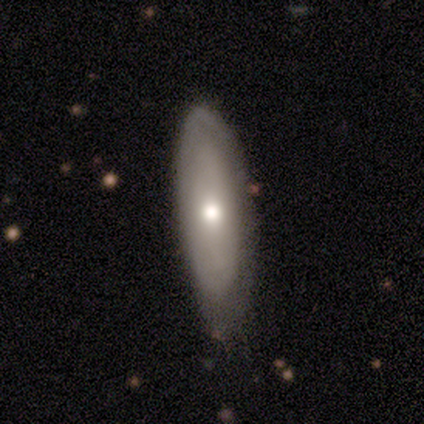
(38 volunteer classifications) This is likely a smooth galaxy (61%). How rounded: possibly in between (48%, tied with cigar-shaped). Merging: likely none (67%).